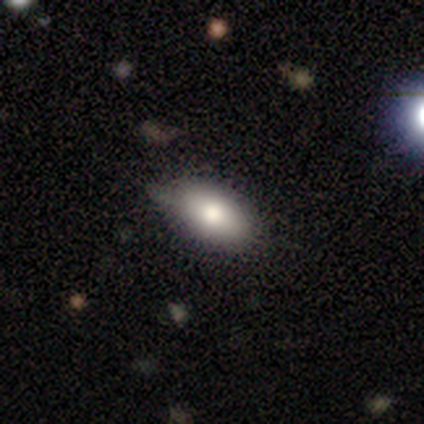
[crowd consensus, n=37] Morphology: type=smooth (84%); roundness=in between (87%); merging=none (83%).